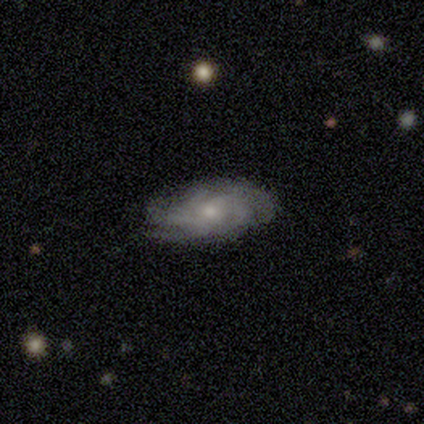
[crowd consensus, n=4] Smooth or featured? 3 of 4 (75%) said featured or disk. Edge-on disk? 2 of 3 (67%) said no. Bar? 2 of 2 (100%) said no. Spiral arms? 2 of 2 (100%) said yes. Spiral winding? 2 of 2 (100%) said tight. Spiral arm count? 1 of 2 (50%, tied with more than 4) said 4. Bulge size? 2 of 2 (100%) said small. Merging? 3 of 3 (100%) said none.